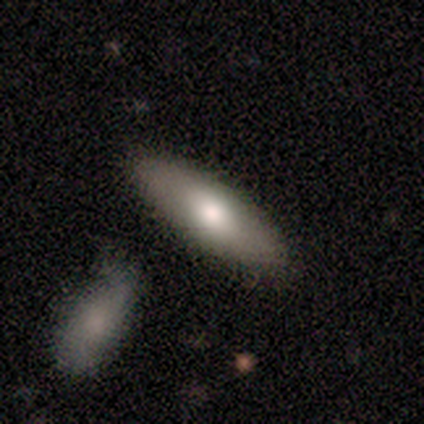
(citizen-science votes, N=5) smooth_or_featured: featured or disk (p=0.60) [alt: smooth p=0.40]
disk_edge_on: yes (p=1.00)
edge_on_bulge: rounded (p=1.00)
merging: none (p=0.60) [alt: minor disturbance p=0.20]